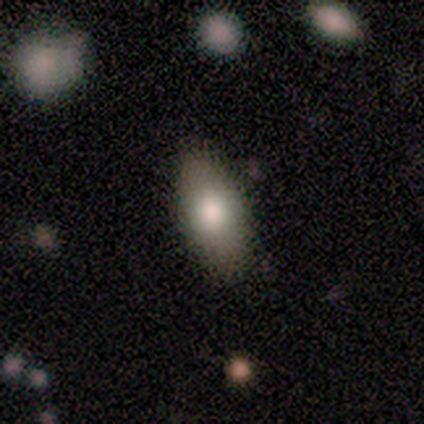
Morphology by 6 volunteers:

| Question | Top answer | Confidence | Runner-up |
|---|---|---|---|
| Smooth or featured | smooth | 50% | star or artifact (33%) |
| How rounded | in between | 100% | — |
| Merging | none | 75% | merger (25%) |